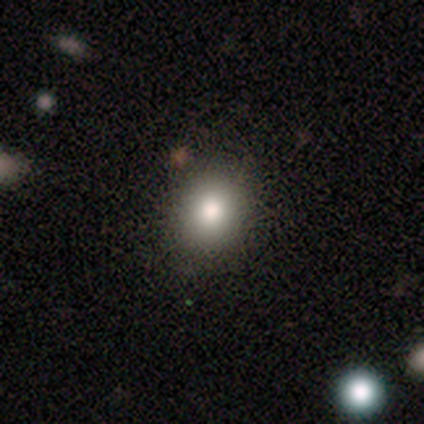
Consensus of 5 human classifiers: Smooth or featured? smooth (100%)
How rounded? round (60%)
Merging? none (100%)